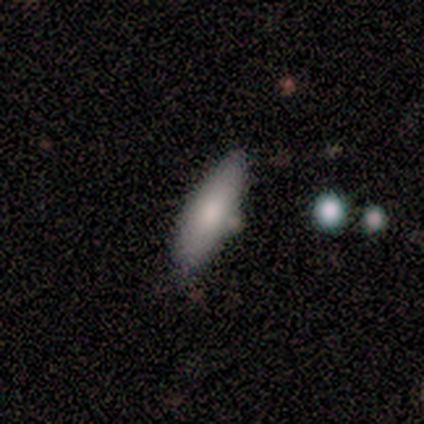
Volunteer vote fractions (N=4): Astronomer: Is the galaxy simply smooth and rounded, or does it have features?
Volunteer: smooth — 75%.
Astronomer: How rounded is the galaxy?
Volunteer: cigar-shaped — 100%.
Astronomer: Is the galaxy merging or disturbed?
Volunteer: minor disturbance — 50%.